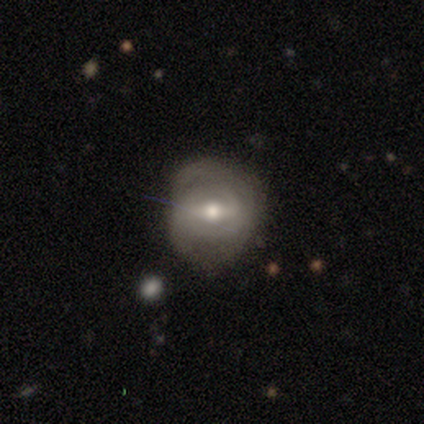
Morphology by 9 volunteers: A featured or disk galaxy (78%) with a strong bar (57%), no spiral arms (57%) and a moderate central bulge (57%). Merging: none (56%).